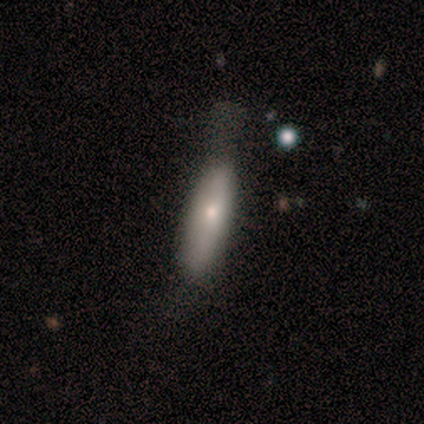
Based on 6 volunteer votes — smooth_or_featured: smooth (p=0.83) [alt: featured or disk p=0.17]
how_rounded: cigar-shaped (p=0.60) [alt: in between p=0.40]
merging: minor disturbance (p=0.67) [alt: none p=0.33]